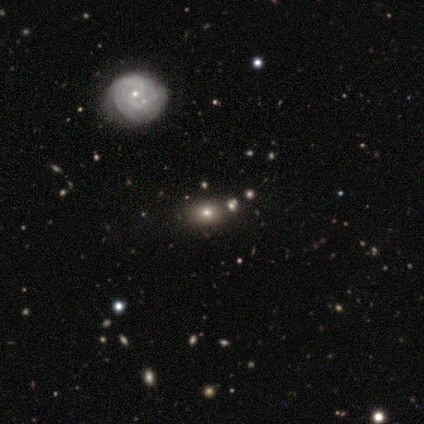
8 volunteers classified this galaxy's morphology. Overall: smooth (50%; featured or disk 38%). How rounded: round (50%, tied with in between). Merging: none (86%).